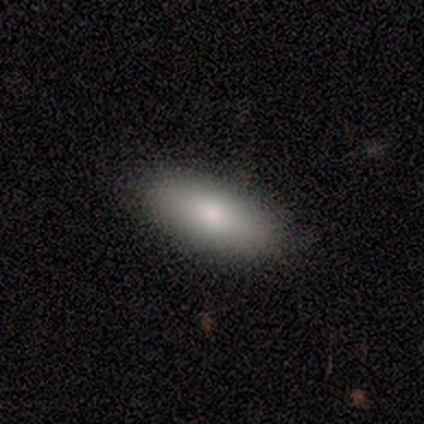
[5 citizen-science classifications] Smooth or featured: smooth — 100%
How rounded: in between — 80% (cigar-shaped — 20%)
Merging: none — 80% (minor disturbance — 20%)